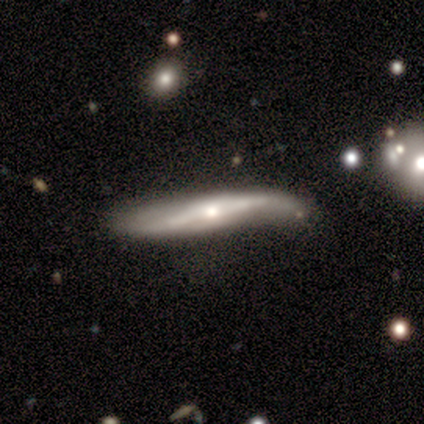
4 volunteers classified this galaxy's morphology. A featured or disk galaxy (75%) with a strong bar (100%), 2 (100%) loose (100%) spiral arms (100%) and a small central bulge (100%).

Vote fractions:
- Smooth or featured? featured or disk: 75% / smooth: 25% / star or artifact: 0%
- Edge-on disk? no: 67% / yes: 33%
- Bar? strong: 100% / weak: 0% / no: 0%
- Spiral arms? yes: 100% / no: 0%
- Spiral winding? loose: 100% / tight: 0% / medium: 0%
- Spiral arm count? 2: 100% / 1: 0% / 3: 0% / 4: 0% / more than 4: 0% / can't tell: 0%
- Bulge size? small: 100% / dominant: 0% / large: 0% / moderate: 0% / none: 0%
- Merging? none: 75% / minor disturbance: 25% / major disturbance: 0% / merger: 0%